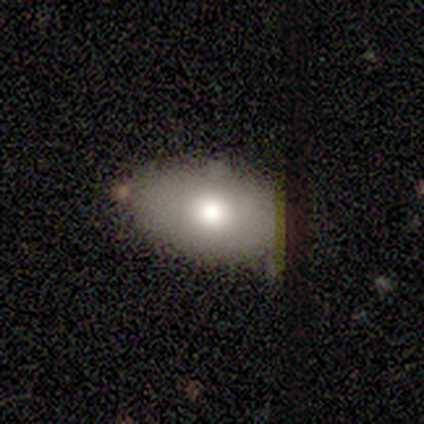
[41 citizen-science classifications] A smooth galaxy with no disk features (73%) that is in between round and cigar-shaped (93%). Merging: none (89%).